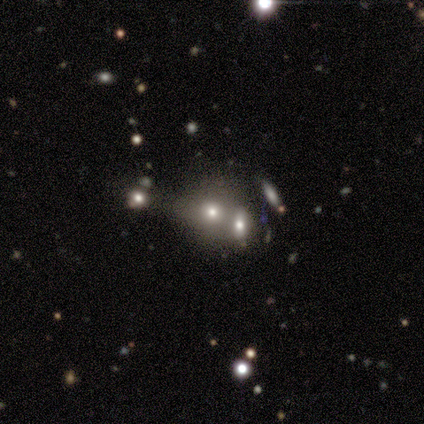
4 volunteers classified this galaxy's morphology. smooth_or_featured: smooth (p=0.75) [alt: featured or disk p=0.25]
how_rounded: round (p=0.67) [alt: in between p=0.33]
merging: none (p=0.50) [tied with: merger p=0.50]